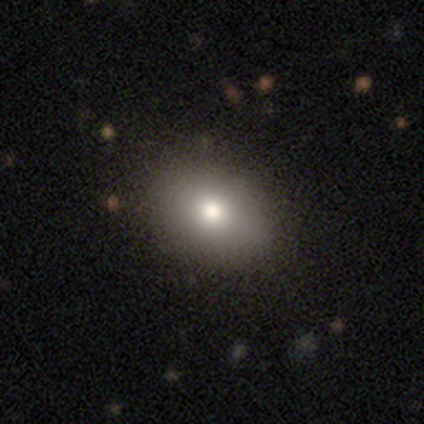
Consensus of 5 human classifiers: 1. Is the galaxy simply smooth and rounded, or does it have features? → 60% smooth, 20% featured or disk, 20% star or artifact.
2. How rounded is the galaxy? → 67% in between, 33% round, 0% cigar-shaped.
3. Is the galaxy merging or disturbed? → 100% none, 0% minor disturbance, 0% major disturbance, 0% merger.